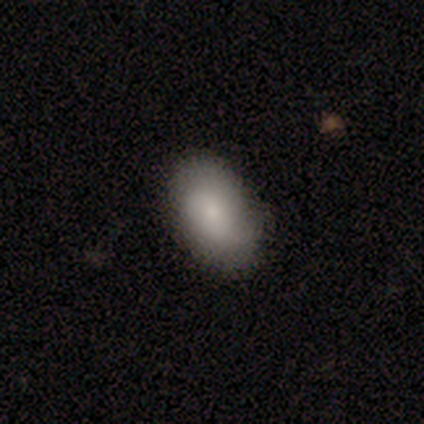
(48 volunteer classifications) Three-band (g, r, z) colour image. It shows a smooth galaxy with no disk features (88%) that is in between round and cigar-shaped (93%). Merging: none (87%).